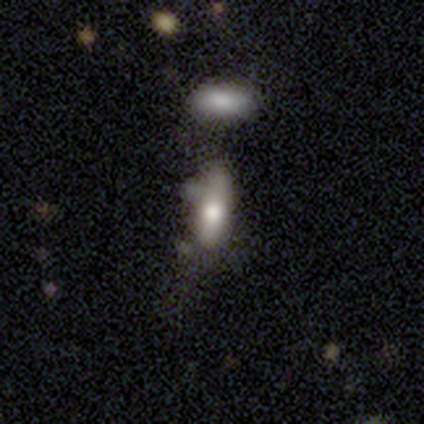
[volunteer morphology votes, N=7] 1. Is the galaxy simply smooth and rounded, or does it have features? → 71% smooth, 14% featured or disk, 14% star or artifact.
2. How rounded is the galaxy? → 60% in between, 40% cigar-shaped, 0% round.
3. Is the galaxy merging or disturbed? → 100% none, 0% minor disturbance, 0% major disturbance, 0% merger.